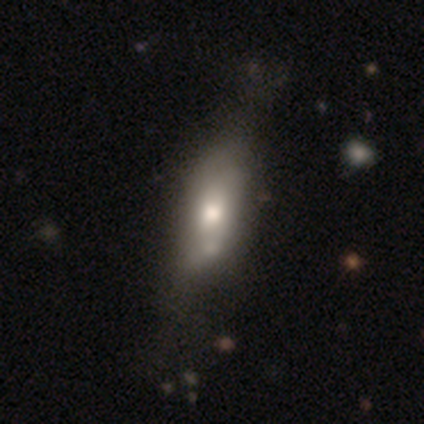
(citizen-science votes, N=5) Smooth or featured? smooth (60%)
How rounded? in between (100%)
Merging? none (40%)